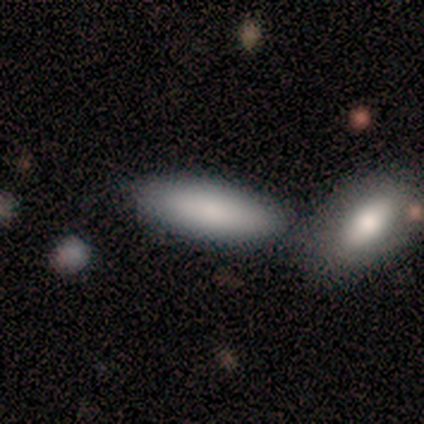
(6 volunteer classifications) This appears to be a smooth galaxy with no disk features (100%) that is in between round and cigar-shaped (100%). Merging: none (67%).